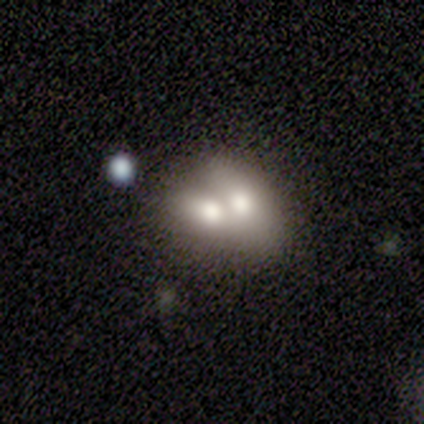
Morphology: type=smooth (60%); roundness=in between (67%); merging=merger (80%).